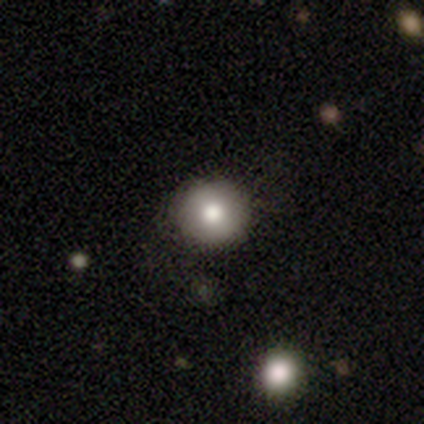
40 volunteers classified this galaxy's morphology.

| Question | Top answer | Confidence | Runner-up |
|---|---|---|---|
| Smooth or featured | smooth | 88% | featured or disk (8%) |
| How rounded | round | 97% | in between (3%) |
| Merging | none | 89% | major disturbance (5%) |